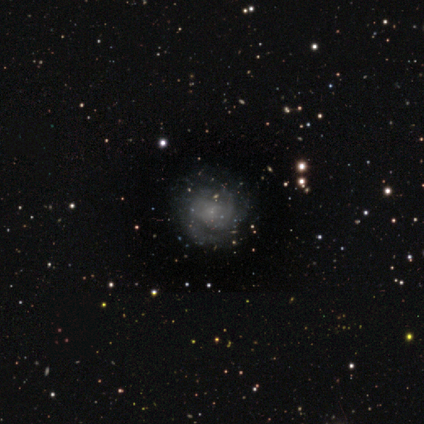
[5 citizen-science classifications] This is clearly a featured or disk galaxy (80%). It is clearly not viewed edge-on (100%). Bar: possibly weak (50%, tied with no). Spiral arm pattern: likely yes (75%). Spiral arm count: likely 2 (67%). Spiral winding: marginally tight (33%, tied with medium and loose). Central bulge: likely small (75%). Merging: likely none (75%).